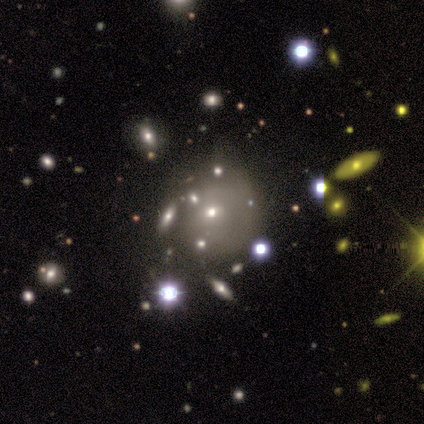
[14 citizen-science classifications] Smooth or featured?
  - smooth: 43% * (tied)
  - featured or disk: 43% * (tied)
  - star or artifact: 14%
How rounded?
  - round: 67% *
  - in between: 33%
  - cigar-shaped: 0%
Merging?
  - none: 42% *
  - merger: 33%
  - minor disturbance: 25%
  - major disturbance: 0%